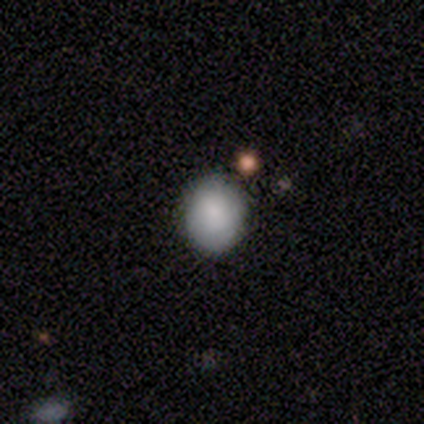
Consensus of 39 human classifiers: Morphology: type=smooth (85%); roundness=round (76%); merging=none (86%).